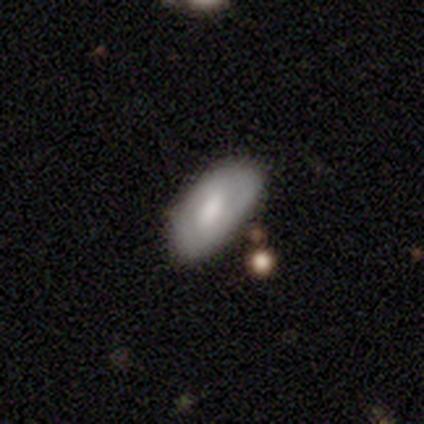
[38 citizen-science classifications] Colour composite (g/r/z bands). It shows a smooth galaxy with no disk features (71%) that is in between round and cigar-shaped (100%). Merging: none (59%).